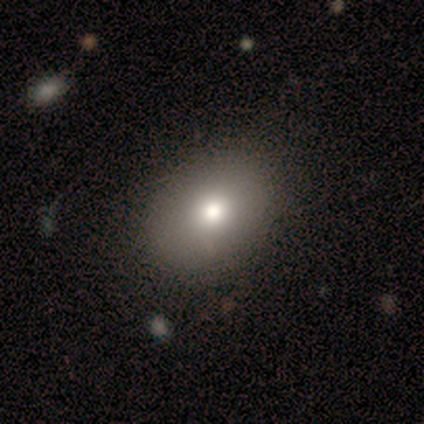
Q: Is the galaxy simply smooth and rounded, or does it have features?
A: featured or disk — 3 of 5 (60%).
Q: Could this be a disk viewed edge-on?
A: no — 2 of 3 (67%).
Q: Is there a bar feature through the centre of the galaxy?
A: no — 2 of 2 (100%).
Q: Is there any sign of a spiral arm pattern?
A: no — 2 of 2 (100%).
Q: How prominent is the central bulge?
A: moderate — 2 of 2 (100%).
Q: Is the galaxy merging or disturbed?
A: none — 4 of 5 (80%).